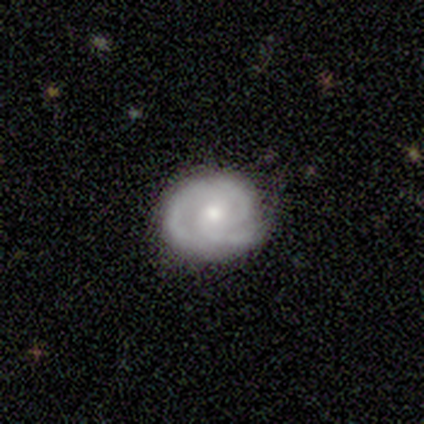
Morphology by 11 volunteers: This appears to be a featured or disk galaxy (100%) with no bar (91%), 2 (73%) medium (55%) spiral arms (100%) and a moderate central bulge (64%). Merging: none (64%).